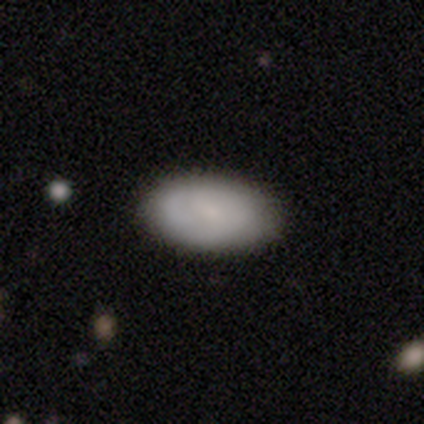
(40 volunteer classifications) This is likely a smooth galaxy (75%). How rounded: clearly in between (100%). Merging: likely none (77%).